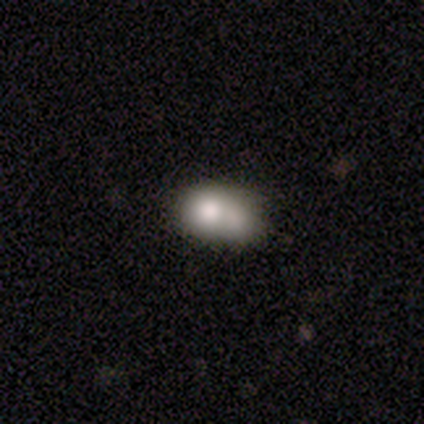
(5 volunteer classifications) This is clearly a smooth galaxy (80%). How rounded: possibly round (50%, tied with in between). Merging: marginally none (40%, tied with merger).